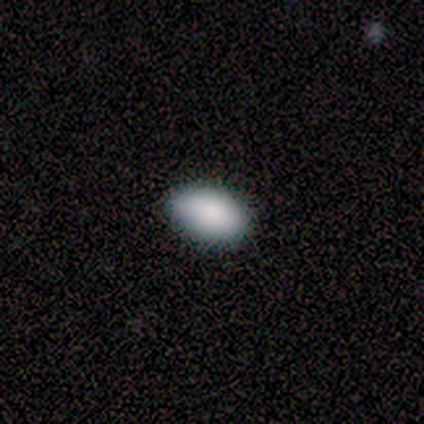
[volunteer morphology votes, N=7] This appears to be a smooth galaxy with no disk features (100%) that is in between round and cigar-shaped (100%). Merging: none (100%).